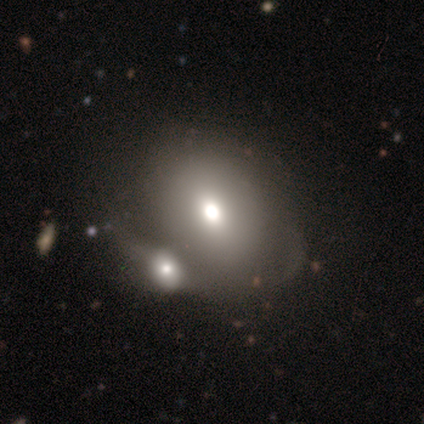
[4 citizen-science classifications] Smooth or featured? 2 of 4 (50%) said smooth. How rounded? 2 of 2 (100%) said in between. Merging? 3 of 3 (100%) said merger.